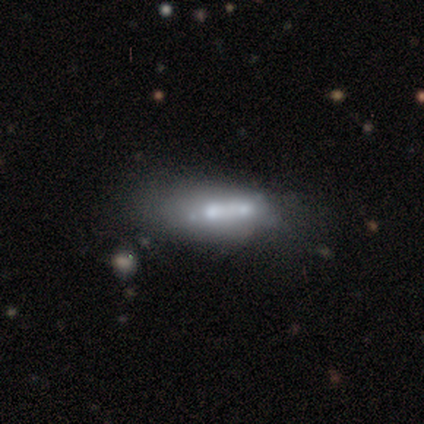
This is marginally a smooth galaxy (40%, tied with featured or disk). How rounded: possibly in between (50%, tied with cigar-shaped). Merging: possibly none (50%).